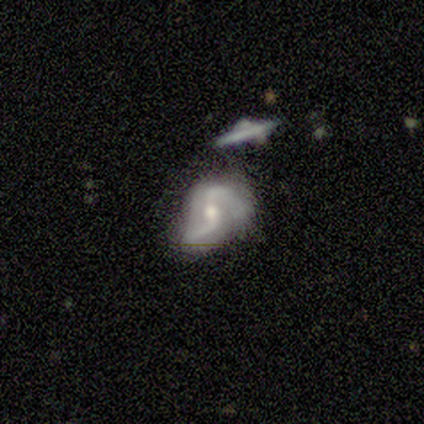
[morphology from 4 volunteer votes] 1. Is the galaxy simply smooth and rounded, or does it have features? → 100% featured or disk, 0% smooth, 0% star or artifact.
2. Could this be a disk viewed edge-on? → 75% no, 25% yes.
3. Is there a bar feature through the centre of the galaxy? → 100% no, 0% strong, 0% weak.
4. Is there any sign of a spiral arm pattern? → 100% yes, 0% no.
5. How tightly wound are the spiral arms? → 67% medium, 33% loose, 0% tight.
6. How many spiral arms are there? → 100% 2, 0% 1, 0% 3, 0% 4, 0% more than 4, 0% can't tell.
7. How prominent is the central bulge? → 67% moderate, 33% small, 0% dominant, 0% large, 0% none.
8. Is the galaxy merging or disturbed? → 50% none, 25% minor disturbance, 25% major disturbance, 0% merger.